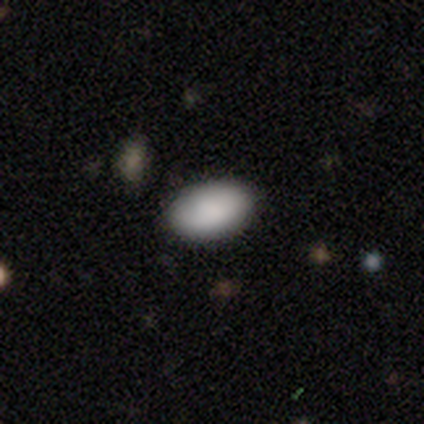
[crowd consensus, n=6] Smooth or featured: smooth — 100%
How rounded: in between — 83% (round — 17%)
Merging: none — 83% (minor disturbance — 17%)